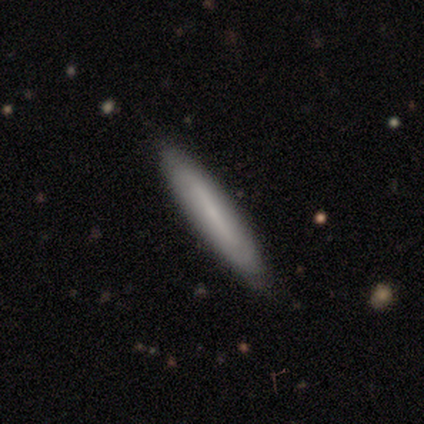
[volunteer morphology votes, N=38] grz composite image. It shows a smooth galaxy with no disk features (68%) that is cigar-shaped (85%). Merging: none (100%).